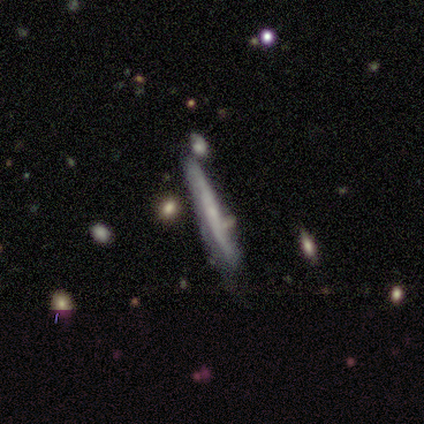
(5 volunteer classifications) Smooth or featured?
  - smooth: 60% *
  - featured or disk: 40%
  - star or artifact: 0%
How rounded?
  - cigar-shaped: 100% *
  - round: 0%
  - in between: 0%
Merging?
  - minor disturbance: 60% *
  - none: 40%
  - major disturbance: 0%
  - merger: 0%